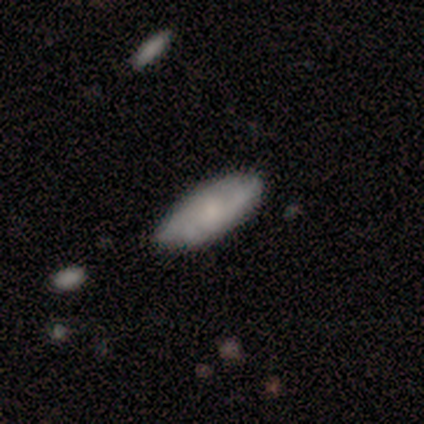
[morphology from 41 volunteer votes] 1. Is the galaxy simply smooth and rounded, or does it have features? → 51% featured or disk, 44% smooth, 5% star or artifact.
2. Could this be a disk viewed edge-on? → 86% no, 14% yes.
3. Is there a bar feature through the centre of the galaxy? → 89% no, 11% weak, 0% strong.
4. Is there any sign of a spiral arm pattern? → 83% yes, 17% no.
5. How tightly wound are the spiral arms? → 53% medium, 27% tight, 20% loose.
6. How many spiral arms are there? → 47% can't tell, 27% 3, 20% 2, 7% more than 4, 0% 1, 0% 4.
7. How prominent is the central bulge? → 56% small, 22% none, 17% moderate, 6% dominant, 0% large.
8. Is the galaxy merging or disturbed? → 67% none, 33% minor disturbance, 0% major disturbance, 0% merger.